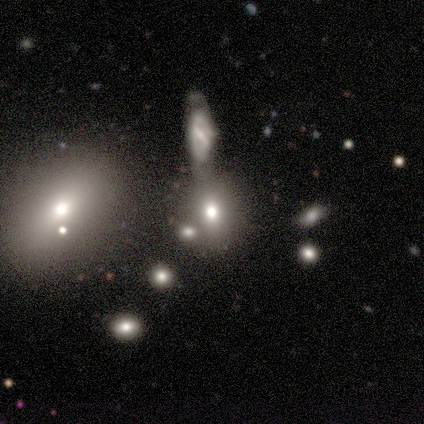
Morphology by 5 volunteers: Q: Smooth or featured?
A: smooth (60%); runner-up: featured or disk (20%)
Q: How rounded?
A: in between (67%); runner-up: round (33%)
Q: Merging?
A: merger (75%); runner-up: none (25%)